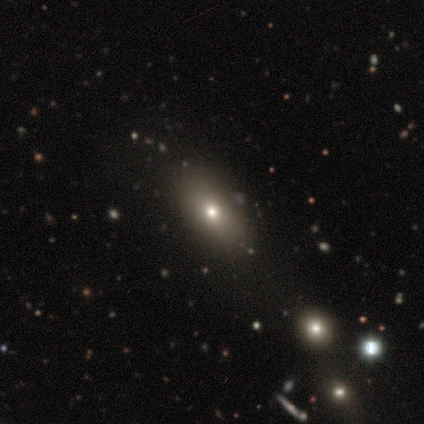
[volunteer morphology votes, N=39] Smooth or featured?
  - smooth: 67% *
  - featured or disk: 26%
  - star or artifact: 8%
How rounded?
  - in between: 92% *
  - cigar-shaped: 8%
  - round: 0%
Merging?
  - none: 75% *
  - minor disturbance: 14%
  - major disturbance: 8%
  - merger: 3%